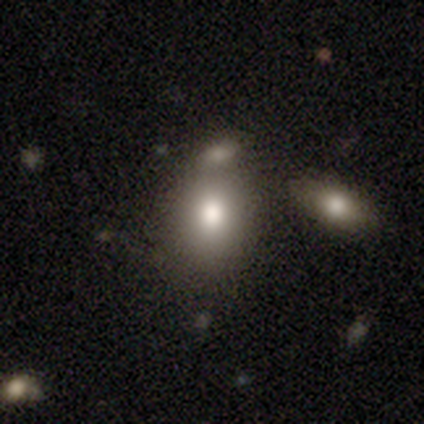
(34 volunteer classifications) This is likely a smooth galaxy (76%). How rounded: possibly in between (58%). Merging: possibly merger (53%).